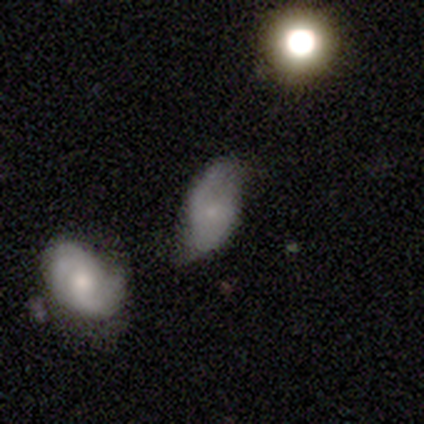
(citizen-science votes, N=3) smooth_or_featured: smooth (p=0.33) [tied with: featured or disk p=0.33, star or artifact p=0.33]
how_rounded: in between (p=1.00)
merging: major disturbance (p=0.50) [tied with: merger p=0.50]